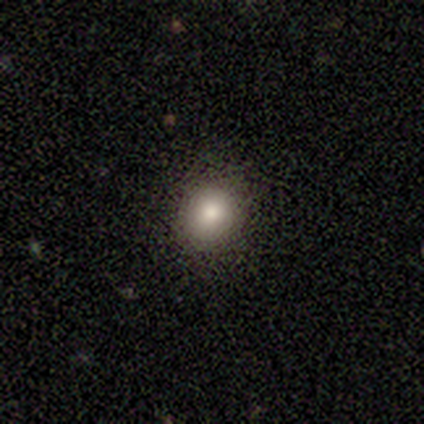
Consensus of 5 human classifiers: This is clearly a smooth galaxy (80%). How rounded: likely round (75%). Merging: clearly none (100%).